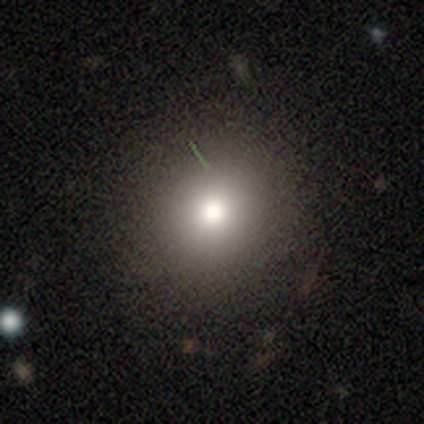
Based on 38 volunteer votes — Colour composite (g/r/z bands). It shows a smooth galaxy with no disk features (76%) that is round (90%). Merging: none (94%).